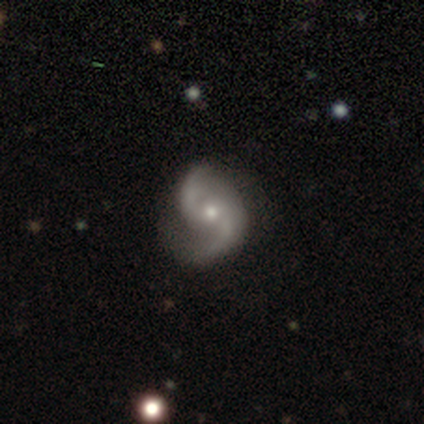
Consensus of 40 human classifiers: featured or disk 95%, smooth 2%, star or artifact 2%. Down the decision tree: edge-on disk — no (100%); bar — no (68%); spiral arms — yes (95%); spiral arm count — 2 (97%); spiral winding — loose (58%); bulge size — small (58%); merging — none (64%).